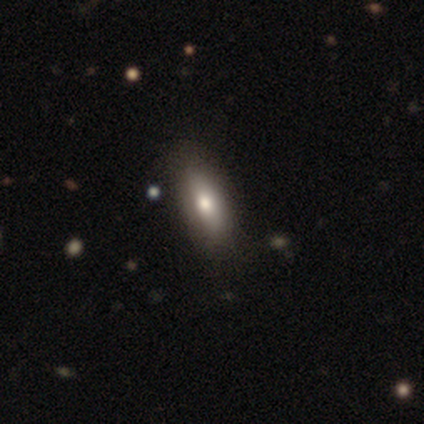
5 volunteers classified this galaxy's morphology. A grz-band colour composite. It shows a smooth galaxy with no disk features (100%) that is cigar-shaped (60%). Merging: none (80%).